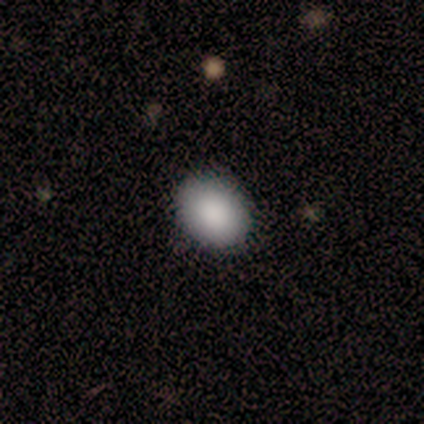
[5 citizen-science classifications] Morphology: type=smooth (80%); roundness=round (75%); merging=none (75%).